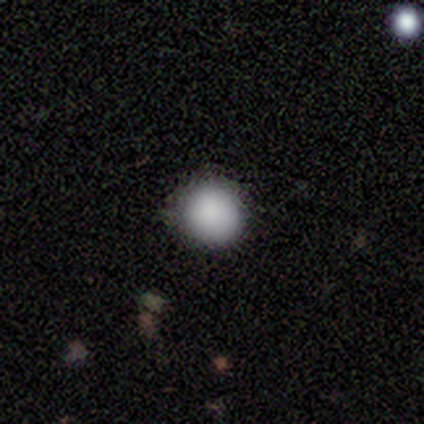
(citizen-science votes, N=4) smooth-or-featured: smooth: 100% | featured or disk: 0% | star or artifact: 0%
  how-rounded: round: 100% | in between: 0% | cigar-shaped: 0%
  merging: none: 100% | minor disturbance: 0% | major disturbance: 0% | merger: 0%